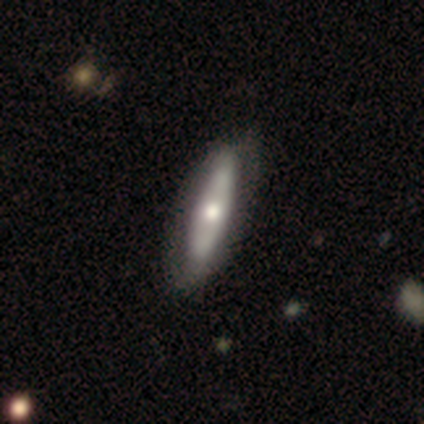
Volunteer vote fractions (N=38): smooth-or-featured: featured or disk: 61% | smooth: 39% | star or artifact: 0%
  disk-edge-on: yes: 65% | no: 35%
    edge-on-bulge: rounded: 67% | none: 33% | boxy: 0%
  merging: none: 63% | minor disturbance: 8% | major disturbance: 3% | merger: 3%